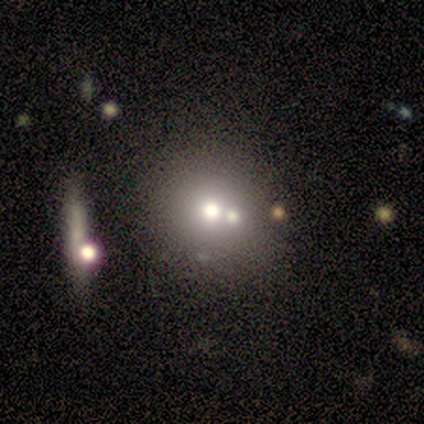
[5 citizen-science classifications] This appears to be a smooth galaxy with no disk features (40%, tied with featured or disk) that is in between round and cigar-shaped (100%). Merging: none (50%, tied with merger).